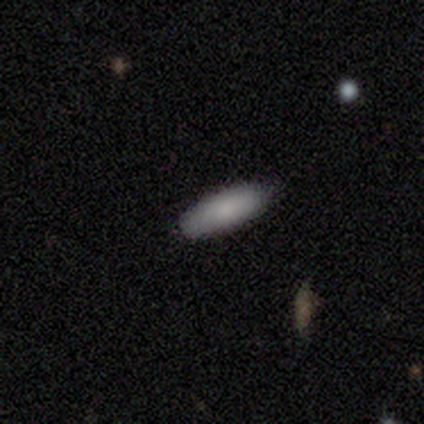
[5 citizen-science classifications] Smooth or featured?
  - smooth: 100% *
  - featured or disk: 0%
  - star or artifact: 0%
How rounded?
  - in between: 80% *
  - cigar-shaped: 20%
  - round: 0%
Merging?
  - none: 100% *
  - minor disturbance: 0%
  - major disturbance: 0%
  - merger: 0%